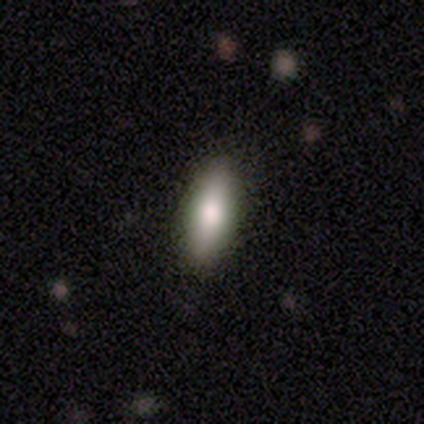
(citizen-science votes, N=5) Smooth or featured: smooth — 100%
How rounded: cigar-shaped — 60% (in between — 40%)
Merging: none — 100%